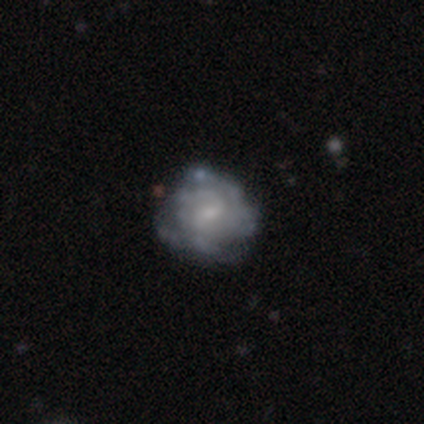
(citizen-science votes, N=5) smooth_or_featured: smooth (p=0.60) [alt: featured or disk p=0.40]
how_rounded: round (p=1.00)
merging: none (p=0.40) [tied with: minor disturbance p=0.40]